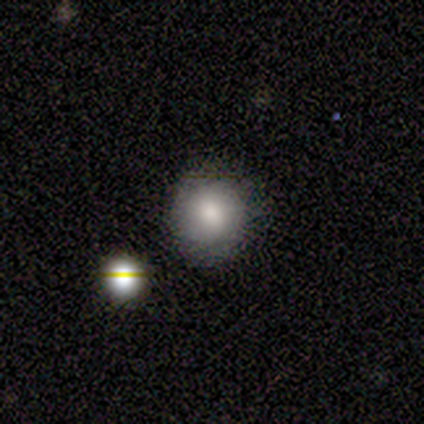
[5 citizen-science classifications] Smooth or featured?
  - smooth: 80% *
  - featured or disk: 20%
  - star or artifact: 0%
How rounded?
  - round: 100% *
  - in between: 0%
  - cigar-shaped: 0%
Merging?
  - none: 80% *
  - minor disturbance: 20%
  - major disturbance: 0%
  - merger: 0%